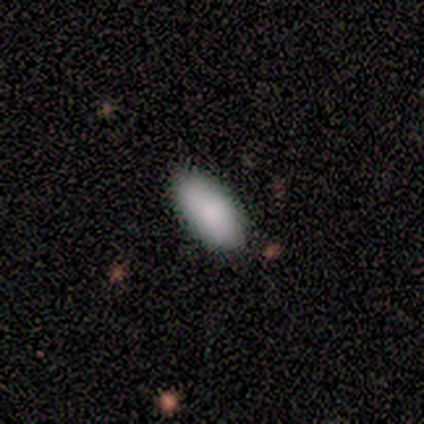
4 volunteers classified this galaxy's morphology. Q: Smooth or featured?
A: smooth (100%)
Q: How rounded?
A: in between (100%)
Q: Merging?
A: none (100%)